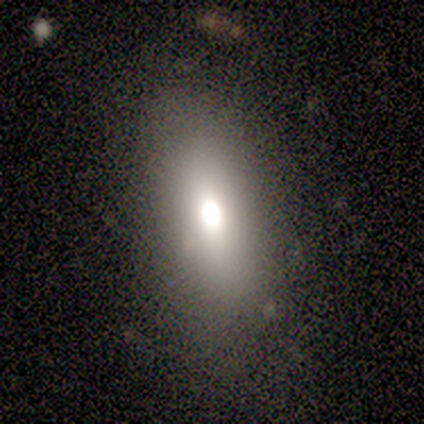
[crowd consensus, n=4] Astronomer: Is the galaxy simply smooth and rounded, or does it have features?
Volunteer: smooth — 100%.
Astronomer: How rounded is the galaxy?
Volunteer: in between — 100%.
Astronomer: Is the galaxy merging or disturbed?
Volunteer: none — 100%.